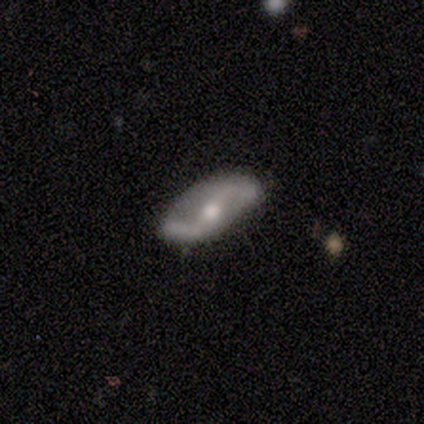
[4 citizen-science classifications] Morphology: type=featured or disk (75%); edge-on=no (67%); bar=strong (50%, tied with no); spiral arms=yes (100%); winding=loose (100%); arm count=2 (100%); bulge=moderate (100%); merging=none (75%).